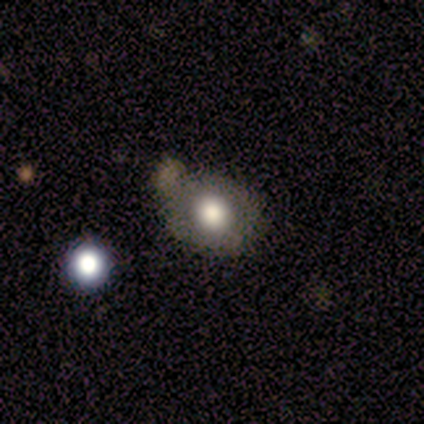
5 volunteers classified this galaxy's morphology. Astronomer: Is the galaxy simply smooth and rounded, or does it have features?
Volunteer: smooth — 100%.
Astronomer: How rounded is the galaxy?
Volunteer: round — 80%.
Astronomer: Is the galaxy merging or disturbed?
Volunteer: none — 80%.